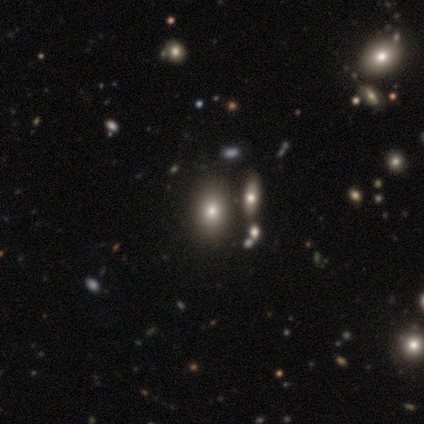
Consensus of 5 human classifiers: Overall: smooth (60%; featured or disk 40%). How rounded: in between (100%). Merging: none (60%; major disturbance 20%).